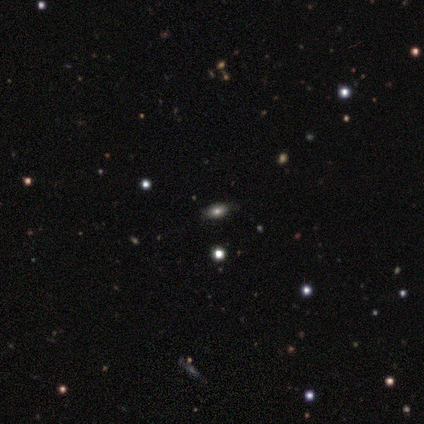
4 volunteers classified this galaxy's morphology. Q: Smooth or featured?
A: smooth (50%); tied with: star or artifact (50%)
Q: How rounded?
A: in between (100%)
Q: Merging?
A: none (100%)